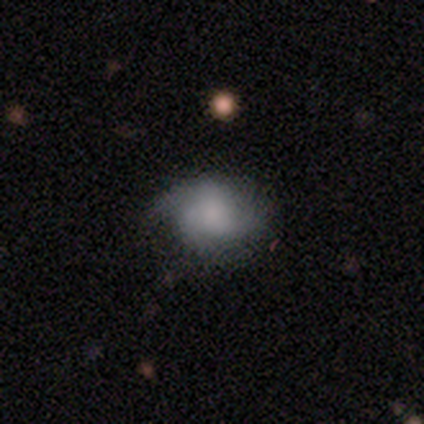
smooth-or-featured: featured or disk: 60% | smooth: 40% | star or artifact: 0%
  disk-edge-on: no: 100% | yes: 0%
    bar: no: 100% | strong: 0% | weak: 0%
    has-spiral-arms: no: 67% | yes: 33%
    bulge-size: none: 100% | dominant: 0% | large: 0% | moderate: 0% | small: 0%
  merging: none: 80% | major disturbance: 20% | minor disturbance: 0% | merger: 0%